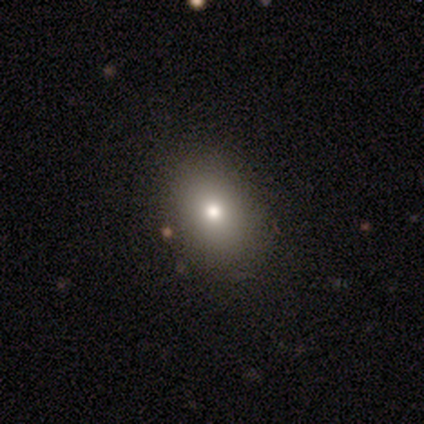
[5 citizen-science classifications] Smooth or featured? smooth (60%)
How rounded? round (67%)
Merging? none (100%)